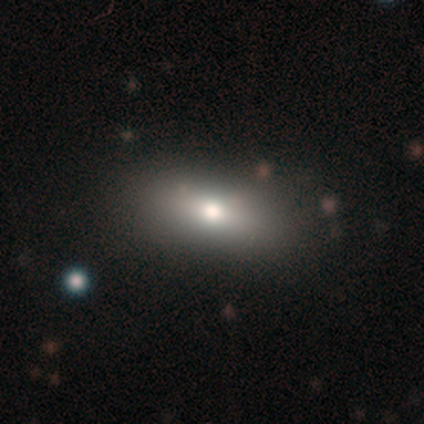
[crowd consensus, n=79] smooth 77%, featured or disk 16%, star or artifact 6%. Down the decision tree: how rounded — in between (80%); merging — none (43%).